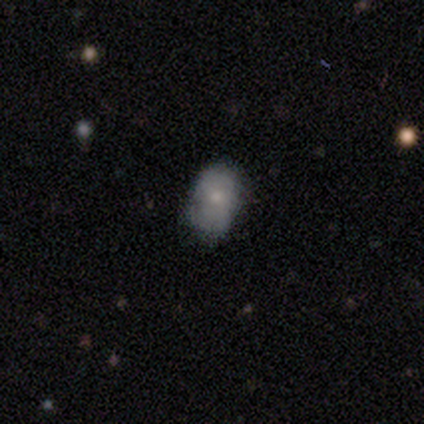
Overall: smooth (70%). How rounded: in between (86%). Merging: none (100%).